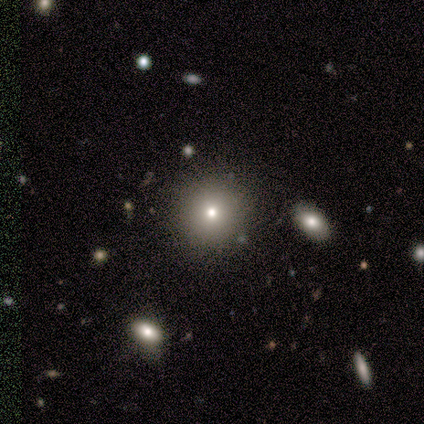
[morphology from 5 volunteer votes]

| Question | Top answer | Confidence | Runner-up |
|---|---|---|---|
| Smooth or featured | smooth | 40% | tied: star or artifact (40%) |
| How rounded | round | 100% | — |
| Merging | none | 100% | — |